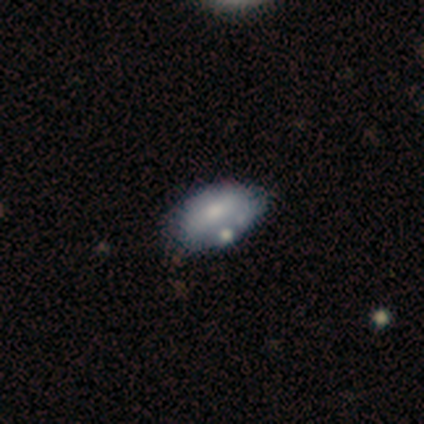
Volunteers were most divided on "smooth or featured": smooth: 55%, featured or disk: 45%, star or artifact: 0%. More confident: how rounded — in between (100%); merging — none (64%).